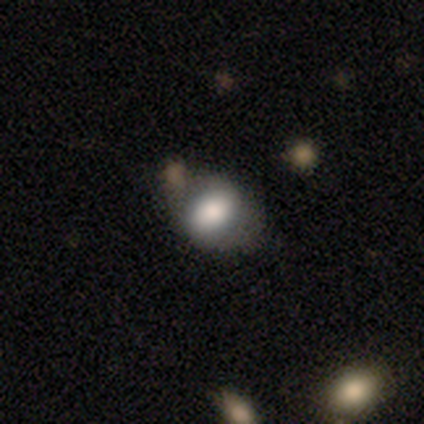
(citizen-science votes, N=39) Volunteers were most divided on "merging": none: 58%, minor disturbance: 30%, merger: 12%, major disturbance: 0%. More confident: smooth or featured — smooth (72%); how rounded — in between (71%).